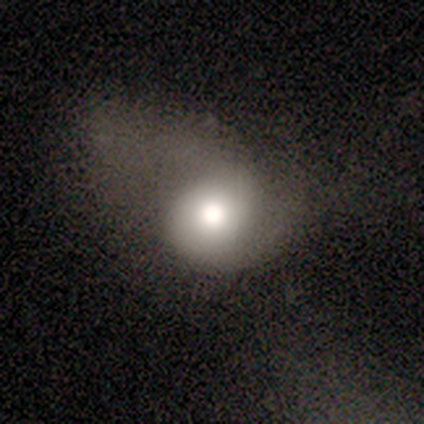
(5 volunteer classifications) Overall: featured or disk (80%). Edge-on disk: no (100%). Bar: no (100%). Spiral arms: yes (50%, tied with no). Spiral arm count: 1 (50%, tied with 2). Spiral winding: tight (50%, tied with loose). Bulge size: moderate (75%). Merging: none (40%, tied with minor disturbance).